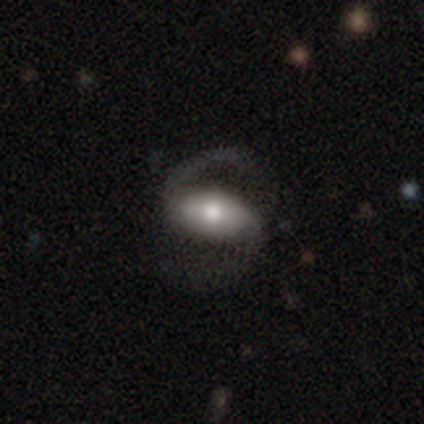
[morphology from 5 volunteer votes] type=featured or disk (80%); edge-on=no (100%); bar=weak (50%); spiral arms=yes (100%); winding=loose (75%); arm count=2 (75%); bulge=moderate (75%); merging=none (80%).